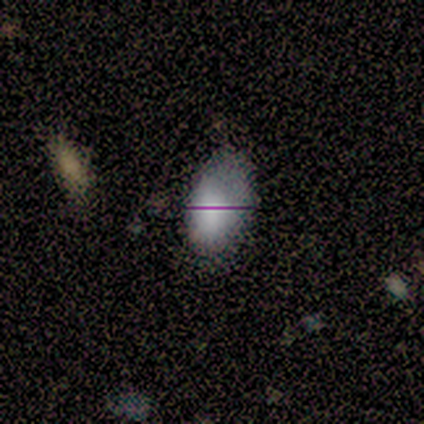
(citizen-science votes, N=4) Smooth or featured: star or artifact — 50% (smooth — 25%)